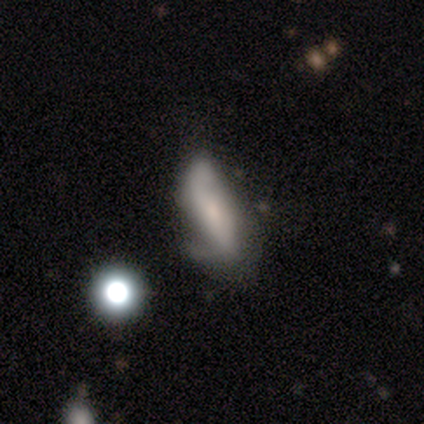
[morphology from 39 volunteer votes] Volunteers were most divided on "bulge size": small: 53%, none: 47%, dominant: 0%, large: 0%, moderate: 0%. Remaining: edge-on disk — no (81%); bar — no (76%); spiral arm count — 2 (70%); spiral winding — loose (70%); spiral arms — yes (59%); smooth or featured — featured or disk (54%); merging — minor disturbance (40%).